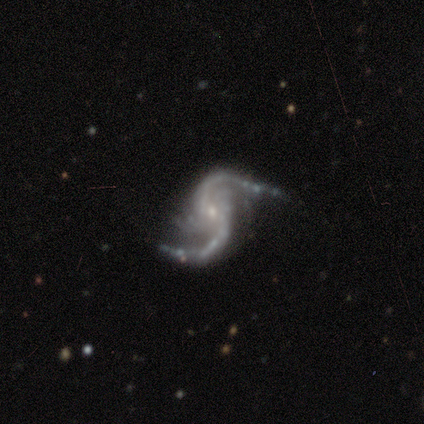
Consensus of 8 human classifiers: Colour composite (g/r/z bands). It shows a featured or disk galaxy (88%) with no bar (57%), 2 (100%) loose (57%) spiral arms (100%) and a small central bulge (86%). Merging: none (86%).